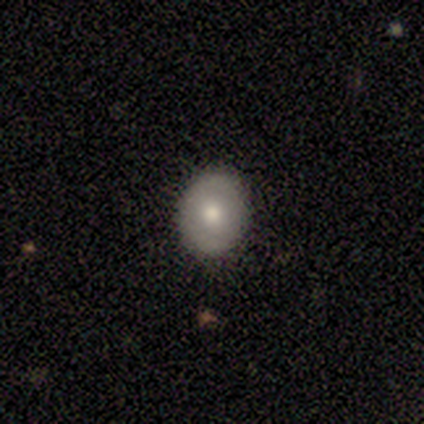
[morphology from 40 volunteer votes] A smooth galaxy with no disk features (65%) that is round (69%).

Vote fractions:
- Smooth or featured? smooth: 65% / featured or disk: 32% / star or artifact: 2%
- How rounded? round: 69% / in between: 31% / cigar-shaped: 0%
- Merging? none: 72% / minor disturbance: 3% / major disturbance: 3% / merger: 0%